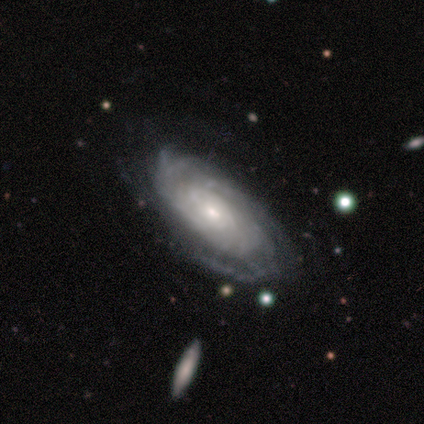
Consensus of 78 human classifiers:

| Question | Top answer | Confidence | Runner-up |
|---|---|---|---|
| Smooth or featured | featured or disk | 87% | smooth (9%) |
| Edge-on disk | no | 94% | yes (6%) |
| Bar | no | 70% | weak (27%) |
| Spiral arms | yes | 94% | no (6%) |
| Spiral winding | tight | 80% | medium (15%) |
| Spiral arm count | can't tell | 65% | more than 4 (10%) |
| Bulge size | small | 56% | moderate (30%) |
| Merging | none | 49% | minor disturbance (13%) |